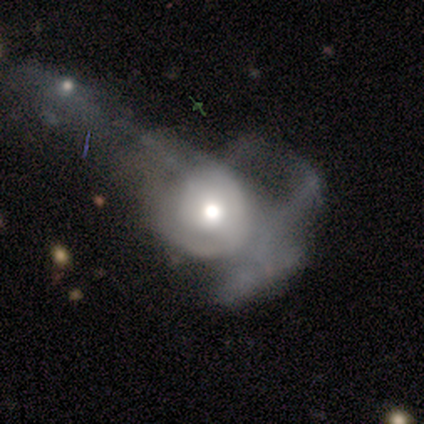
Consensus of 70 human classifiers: Morphology: type=featured or disk (69%); edge-on=no (98%); bar=no (91%); spiral arms=no (62%); bulge=moderate (60%); merging=major disturbance (55%).